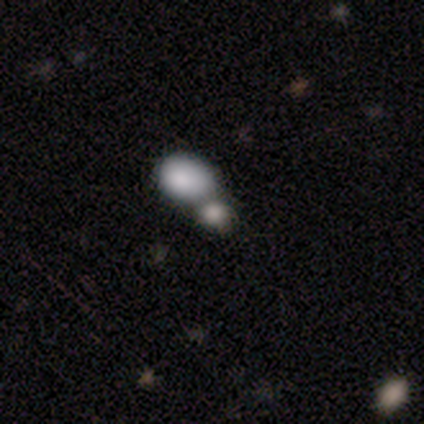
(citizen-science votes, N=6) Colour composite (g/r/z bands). It shows a smooth galaxy with no disk features (100%) that is in between round and cigar-shaped (83%). Merging: none (50%, tied with merger).